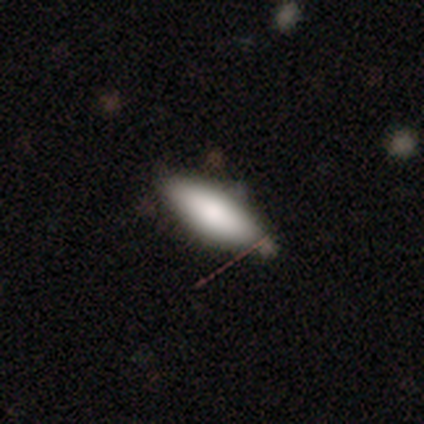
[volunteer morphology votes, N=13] Smooth or featured?
  - smooth: 85% *
  - featured or disk: 15%
  - star or artifact: 0%
How rounded?
  - in between: 64% *
  - cigar-shaped: 36%
  - round: 0%
Merging?
  - none: 62% *
  - minor disturbance: 38%
  - major disturbance: 0%
  - merger: 0%